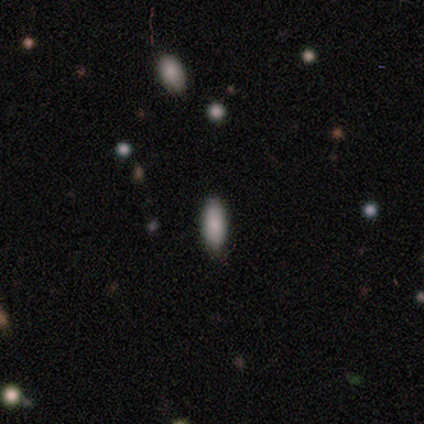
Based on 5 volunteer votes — smooth 100%, featured or disk 0%, star or artifact 0%. Down the decision tree: how rounded — in between (80%); merging — none (100%).